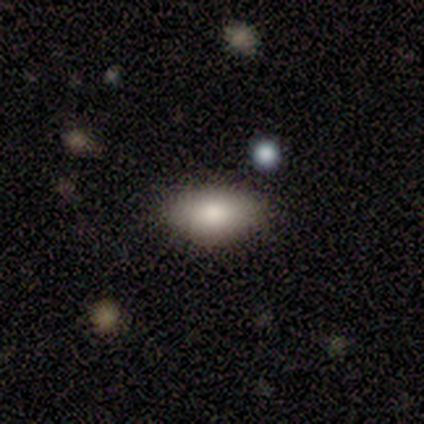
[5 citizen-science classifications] Smooth or featured?
  - smooth: 40% * (tied)
  - featured or disk: 40% * (tied)
  - star or artifact: 20%
How rounded?
  - in between: 100% *
  - round: 0%
  - cigar-shaped: 0%
Merging?
  - none: 75% *
  - minor disturbance: 25%
  - major disturbance: 0%
  - merger: 0%